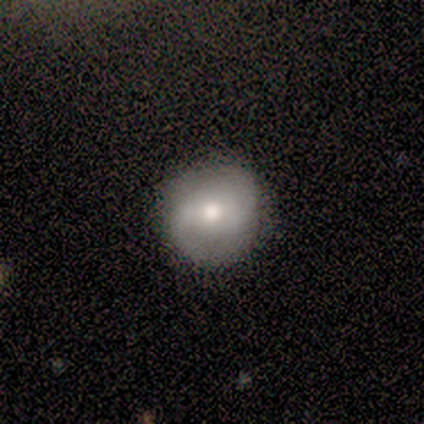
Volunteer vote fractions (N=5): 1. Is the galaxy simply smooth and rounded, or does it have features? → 60% smooth, 40% featured or disk, 0% star or artifact.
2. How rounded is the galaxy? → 100% round, 0% in between, 0% cigar-shaped.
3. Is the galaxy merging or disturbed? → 100% none, 0% minor disturbance, 0% major disturbance, 0% merger.